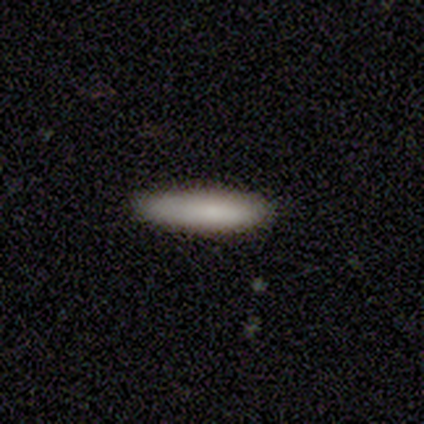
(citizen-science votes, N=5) smooth_or_featured: smooth (p=1.00)
how_rounded: cigar-shaped (p=0.80) [alt: in between p=0.20]
merging: none (p=0.80) [alt: minor disturbance p=0.20]